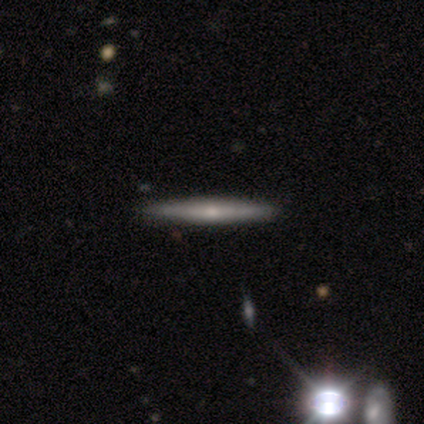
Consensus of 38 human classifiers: This is likely a featured or disk galaxy (79%). It is clearly viewed edge-on (100%). Edge-on bulge: likely rounded (63%). Merging: likely none (68%).